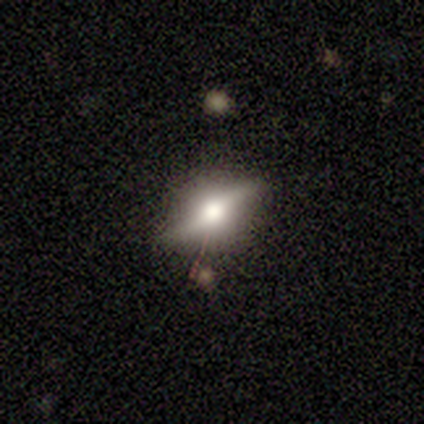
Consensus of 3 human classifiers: Morphology: type=featured or disk (100%); edge-on=yes (67%); edge-on bulge=rounded (100%); merging=none (67%).